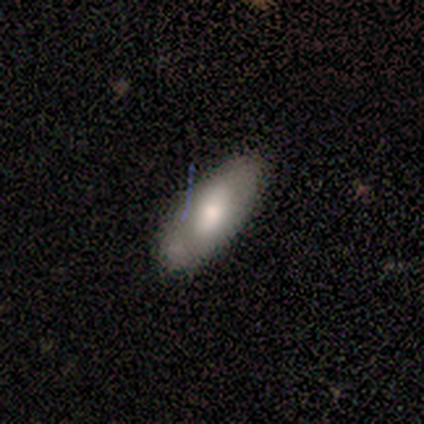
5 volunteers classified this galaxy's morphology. smooth-or-featured: smooth: 60% | featured or disk: 40% | star or artifact: 0%
  how-rounded: in between: 100% | round: 0% | cigar-shaped: 0%
  merging: none: 60% | major disturbance: 20% | merger: 20% | minor disturbance: 0%